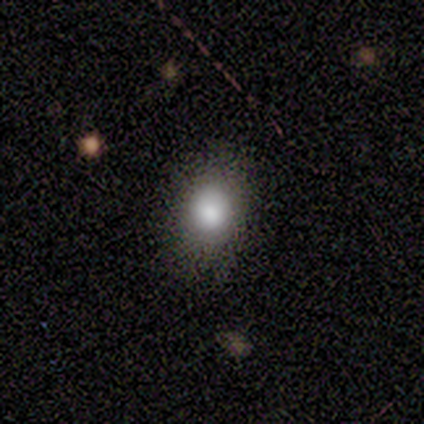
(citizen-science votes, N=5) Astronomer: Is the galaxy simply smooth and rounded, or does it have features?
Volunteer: smooth — 40%, tied with featured or disk at 40%.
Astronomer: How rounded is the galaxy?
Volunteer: round — 100%.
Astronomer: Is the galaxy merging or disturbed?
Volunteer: none — 100%.